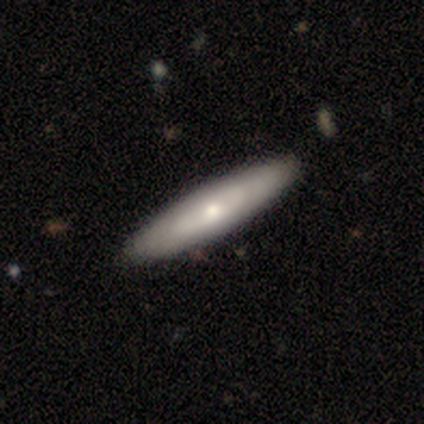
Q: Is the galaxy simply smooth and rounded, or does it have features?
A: smooth — 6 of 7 (86%).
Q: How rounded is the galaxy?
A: cigar-shaped — 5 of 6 (83%).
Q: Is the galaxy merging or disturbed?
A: none — 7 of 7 (100%).